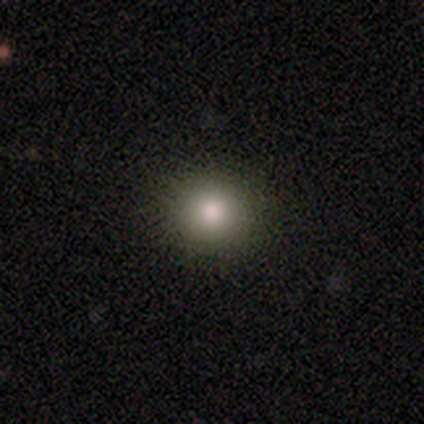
smooth_or_featured: smooth (p=0.66) [alt: featured or disk p=0.22]
how_rounded: round (p=0.96) [alt: in between p=0.04]
merging: none (p=0.94) [alt: minor disturbance p=0.06]